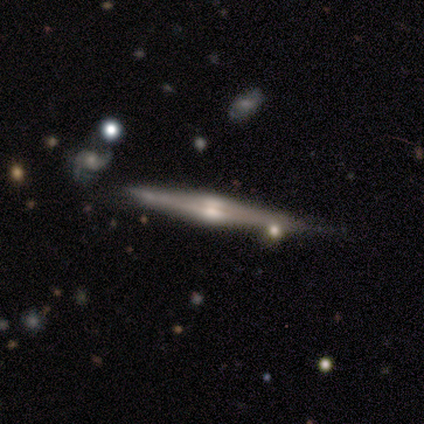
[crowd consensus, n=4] smooth_or_featured: featured or disk (p=0.75) [alt: smooth p=0.25]
disk_edge_on: yes (p=1.00)
edge_on_bulge: rounded (p=1.00)
merging: none (p=0.75) [alt: minor disturbance p=0.25]